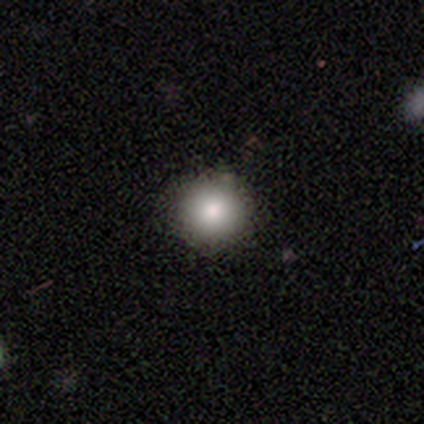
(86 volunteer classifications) smooth_or_featured: smooth (p=0.83) [alt: star or artifact p=0.12]
how_rounded: round (p=0.94) [alt: in between p=0.06]
merging: none (p=0.91) [alt: minor disturbance p=0.05]